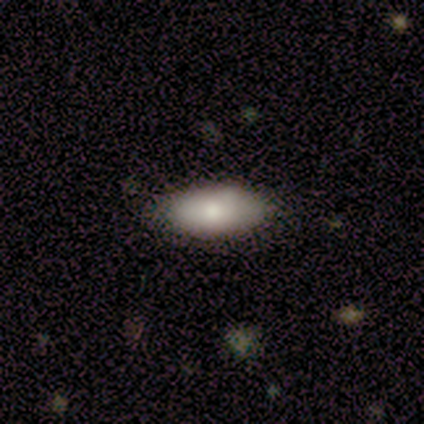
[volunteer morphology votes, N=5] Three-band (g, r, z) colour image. It shows a smooth galaxy with no disk features (80%) that is in between round and cigar-shaped (100%). Merging: none (80%).